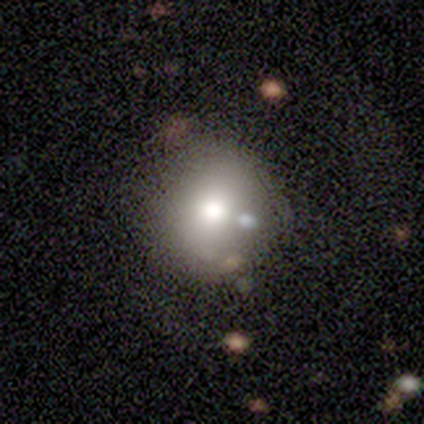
Smooth or featured: smooth — 73% (featured or disk — 20%)
How rounded: round — 93% (in between — 7%)
Merging: none — 84% (minor disturbance — 11%)